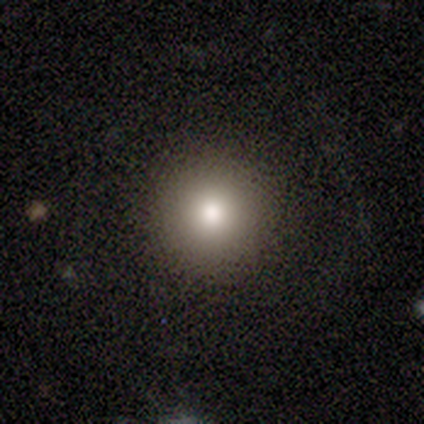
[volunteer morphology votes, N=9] A star or artifact, not a galaxy (67%).

Vote fractions:
- Smooth or featured? star or artifact: 67% / smooth: 33% / featured or disk: 0%